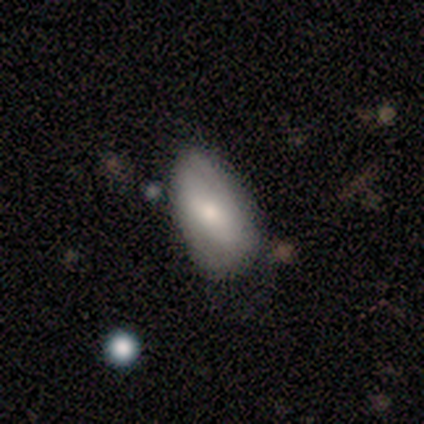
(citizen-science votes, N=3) A smooth galaxy with no disk features (67%) that is in between round and cigar-shaped (100%). Merging: major disturbance (67%).